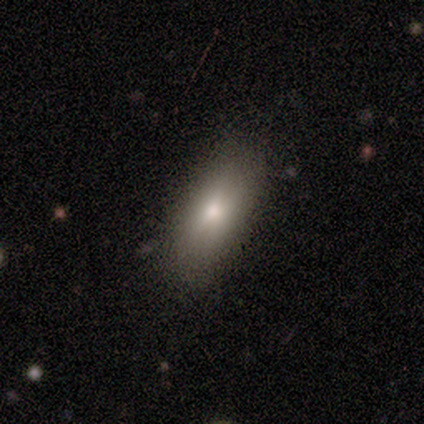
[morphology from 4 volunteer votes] Smooth or featured: smooth — 75% (star or artifact — 25%)
How rounded: in between — 100%
Merging: none — 100%